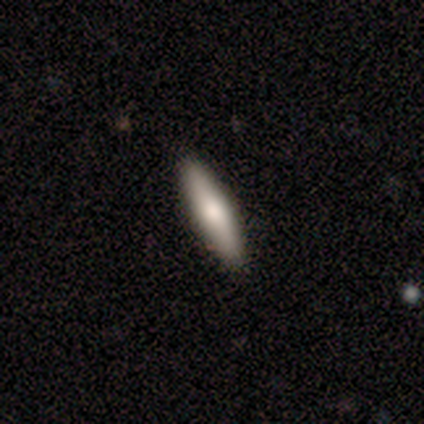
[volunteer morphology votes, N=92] smooth_or_featured: smooth (p=0.74) [alt: featured or disk p=0.23]
how_rounded: cigar-shaped (p=0.93) [alt: in between p=0.04]
merging: none (p=0.91) [alt: minor disturbance p=0.07]